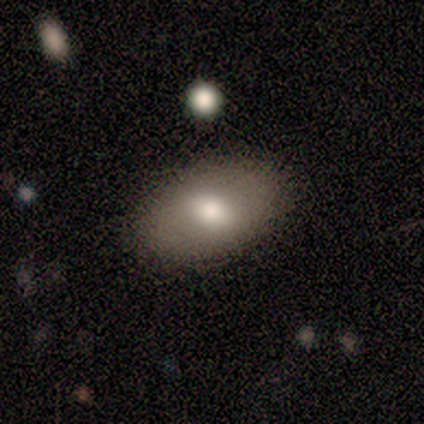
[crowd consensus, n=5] This is likely a smooth galaxy (60%). How rounded: clearly in between (100%). Merging: likely none (75%).